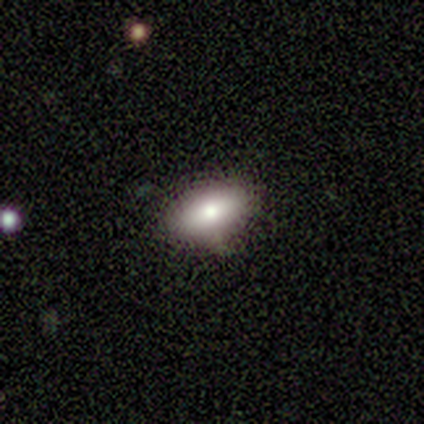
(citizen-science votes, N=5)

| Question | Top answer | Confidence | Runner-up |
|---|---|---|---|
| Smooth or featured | smooth | 80% | star or artifact (20%) |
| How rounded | in between | 100% | — |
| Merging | none | 100% | — |